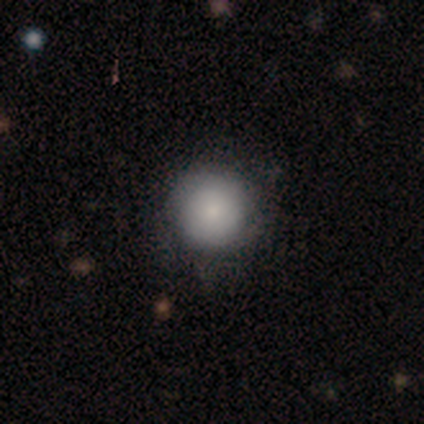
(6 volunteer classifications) smooth_or_featured: smooth (p=0.83) [alt: featured or disk p=0.17]
how_rounded: round (p=1.00)
merging: none (p=1.00)